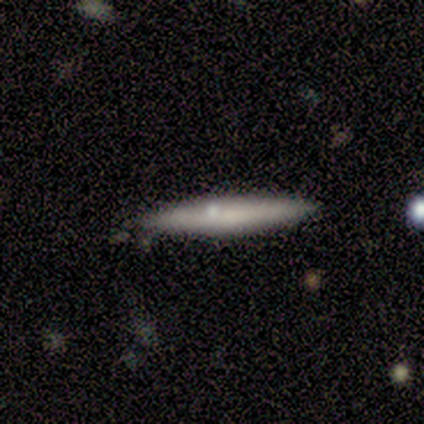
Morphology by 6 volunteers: This appears to be a smooth galaxy with no disk features (100%) that is cigar-shaped (100%). Merging: none (83%).